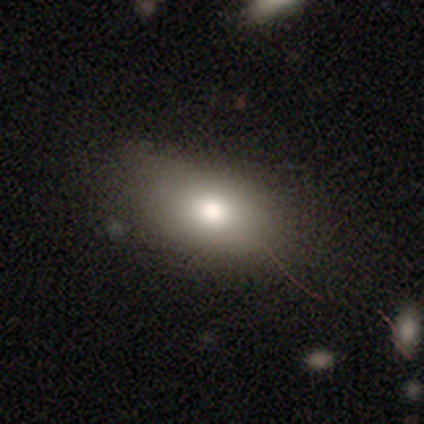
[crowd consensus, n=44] Overall: smooth (66%). How rounded: in between (90%). Merging: none (75%).